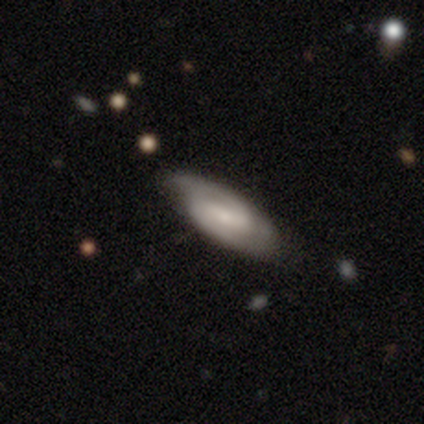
Smooth or featured?
  - featured or disk: 75% *
  - smooth: 25%
  - star or artifact: 0%
Edge-on disk?
  - no: 100% *
  - yes: 0%
Bar?
  - strong: 33% * (tied)
  - weak: 33% * (tied)
  - no: 33% * (tied)
Spiral arms?
  - yes: 100% *
  - no: 0%
Spiral winding?
  - tight: 67% *
  - medium: 33%
  - loose: 0%
Spiral arm count?
  - 2: 67% *
  - can't tell: 33%
  - 1: 0%
  - 3: 0%
  - 4: 0%
  - more than 4: 0%
Bulge size?
  - small: 100% *
  - dominant: 0%
  - large: 0%
  - moderate: 0%
  - none: 0%
Merging?
  - none: 100% *
  - minor disturbance: 0%
  - major disturbance: 0%
  - merger: 0%